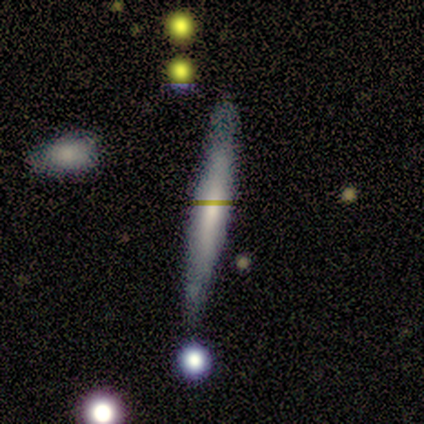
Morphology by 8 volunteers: This appears to be a smooth galaxy with no disk features (75%) that is cigar-shaped (100%). Merging: none (75%).